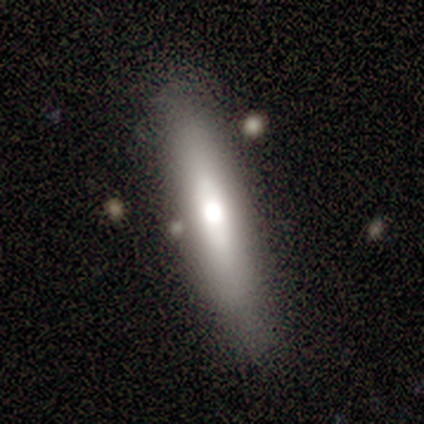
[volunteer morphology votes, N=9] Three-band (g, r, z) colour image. It shows a smooth galaxy with no disk features (56%) that is in between round and cigar-shaped (60%). Merging: none (88%).